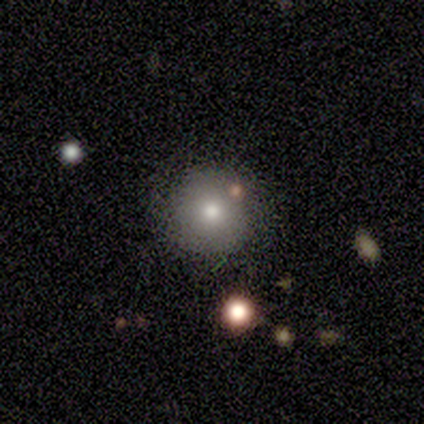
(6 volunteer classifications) Morphology: type=smooth (67%); roundness=round (100%); merging=none (80%).